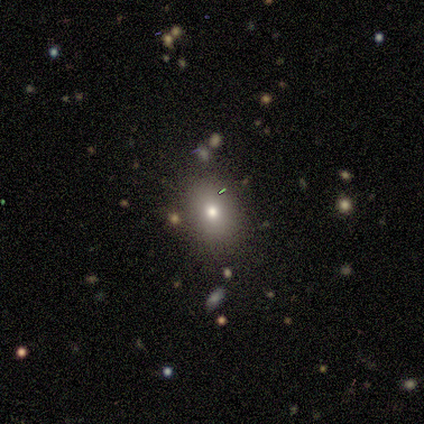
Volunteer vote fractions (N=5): Smooth or featured: star or artifact — 60% (smooth — 40%)